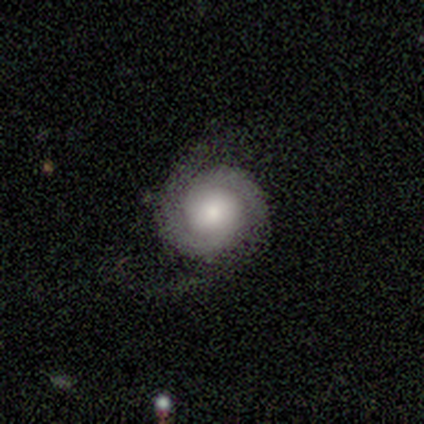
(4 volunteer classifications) Smooth or featured? 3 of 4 (75%) said featured or disk. Edge-on disk? 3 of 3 (100%) said no. Bar? 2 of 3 (67%) said no. Spiral arms? 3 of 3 (100%) said yes. Spiral winding? 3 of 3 (100%) said tight. Spiral arm count? 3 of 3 (100%) said 2. Bulge size? 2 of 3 (67%) said moderate. Merging? 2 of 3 (67%) said none.